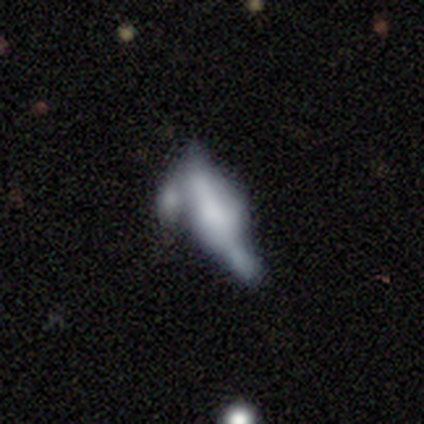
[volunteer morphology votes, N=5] type=smooth (80%); roundness=in between (75%); merging=minor disturbance (40%, tied with major disturbance).